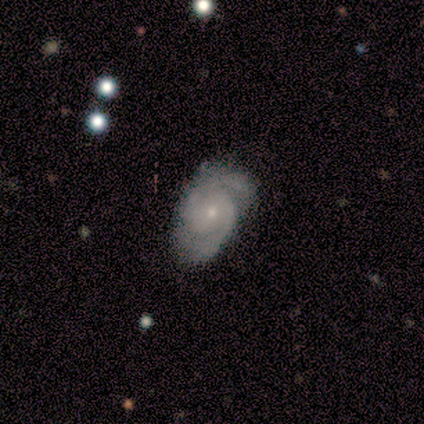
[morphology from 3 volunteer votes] featured or disk 100%, smooth 0%, star or artifact 0%. Down the decision tree: edge-on disk — no (100%); bar — no (100%); spiral arms — yes (100%); spiral arm count — 2 (100%); spiral winding — tight (67%); bulge size — small (100%); merging — none (67%).